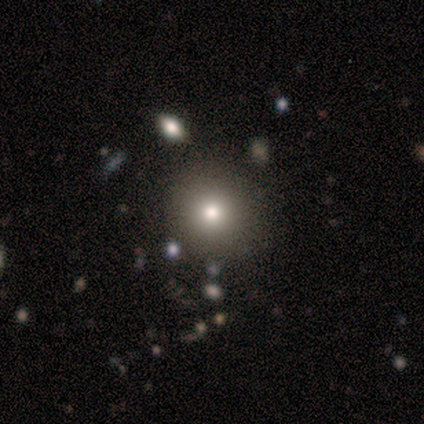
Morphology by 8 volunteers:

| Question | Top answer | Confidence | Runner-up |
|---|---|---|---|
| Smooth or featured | smooth | 50% | featured or disk (25%) |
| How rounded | round | 75% | in between (25%) |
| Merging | none | 100% | — |